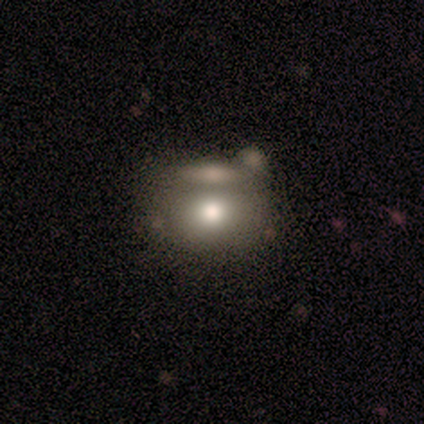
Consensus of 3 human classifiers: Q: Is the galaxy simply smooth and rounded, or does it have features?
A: smooth — 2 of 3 (67%).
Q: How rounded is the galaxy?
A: round — 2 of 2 (100%).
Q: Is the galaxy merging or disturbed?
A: none — 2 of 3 (67%).